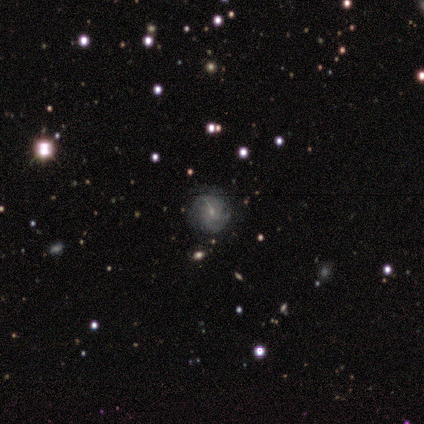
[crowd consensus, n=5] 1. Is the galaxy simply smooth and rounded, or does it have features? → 80% featured or disk, 20% smooth, 0% star or artifact.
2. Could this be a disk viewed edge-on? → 100% no, 0% yes.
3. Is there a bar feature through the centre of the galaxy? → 50% weak, 25% strong, 25% no.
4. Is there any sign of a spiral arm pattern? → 100% yes, 0% no.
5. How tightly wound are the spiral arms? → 75% medium, 25% tight, 0% loose.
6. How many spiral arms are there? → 50% 2 (tied), 50% can't tell (tied), 0% 1, 0% 3, 0% 4, 0% more than 4.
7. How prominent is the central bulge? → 100% small, 0% dominant, 0% large, 0% moderate, 0% none.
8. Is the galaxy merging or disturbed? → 80% none, 20% minor disturbance, 0% major disturbance, 0% merger.